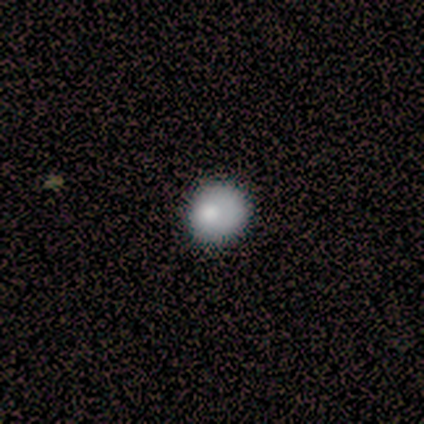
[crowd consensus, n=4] Q: Smooth or featured?
A: smooth (75%); runner-up: star or artifact (25%)
Q: How rounded?
A: round (100%)
Q: Merging?
A: none (100%)